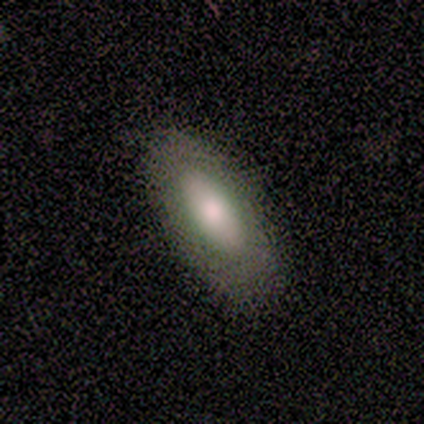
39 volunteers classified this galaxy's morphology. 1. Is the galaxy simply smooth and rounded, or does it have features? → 69% smooth, 26% featured or disk, 5% star or artifact.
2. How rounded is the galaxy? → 96% in between, 4% cigar-shaped, 0% round.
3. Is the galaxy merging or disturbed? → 73% none, 24% minor disturbance, 3% major disturbance, 0% merger.